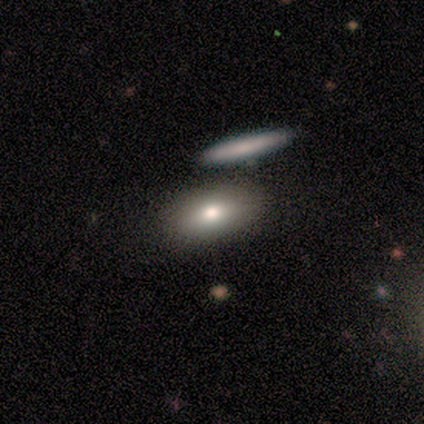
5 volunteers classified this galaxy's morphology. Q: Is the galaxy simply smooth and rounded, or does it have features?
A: smooth — 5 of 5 (100%).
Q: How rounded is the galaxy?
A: in between — 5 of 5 (100%).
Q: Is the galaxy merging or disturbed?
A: none — 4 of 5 (80%).